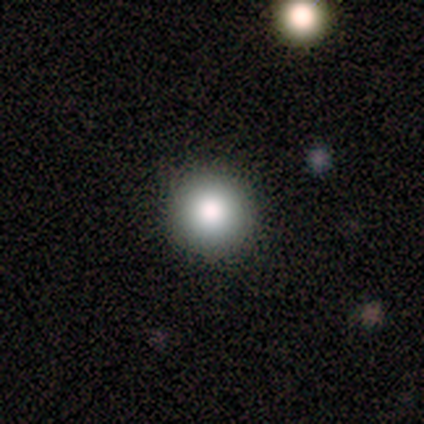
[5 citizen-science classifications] This is clearly a smooth galaxy (100%). How rounded: clearly round (100%). Merging: clearly none (100%).